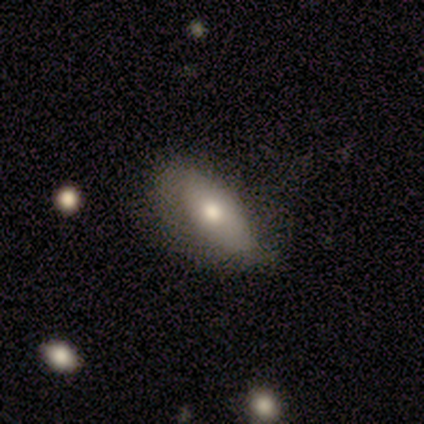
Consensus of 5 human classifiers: Smooth or featured? 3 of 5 (60%) said smooth. How rounded? 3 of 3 (100%) said in between. Merging? 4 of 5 (80%) said none.